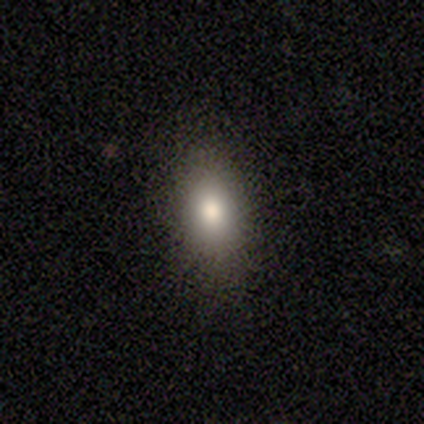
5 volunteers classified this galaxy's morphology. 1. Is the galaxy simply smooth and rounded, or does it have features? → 80% smooth, 20% featured or disk, 0% star or artifact.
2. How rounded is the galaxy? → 75% round, 25% in between, 0% cigar-shaped.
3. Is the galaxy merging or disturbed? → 80% none, 20% minor disturbance, 0% major disturbance, 0% merger.